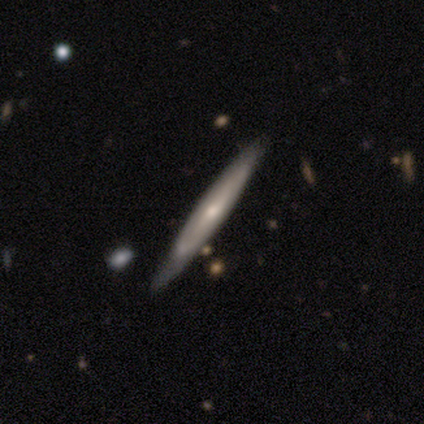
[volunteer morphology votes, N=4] Q: Smooth or featured?
A: smooth (50%); tied with: featured or disk (50%)
Q: How rounded?
A: cigar-shaped (100%)
Q: Merging?
A: none (50%); tied with: minor disturbance (50%)